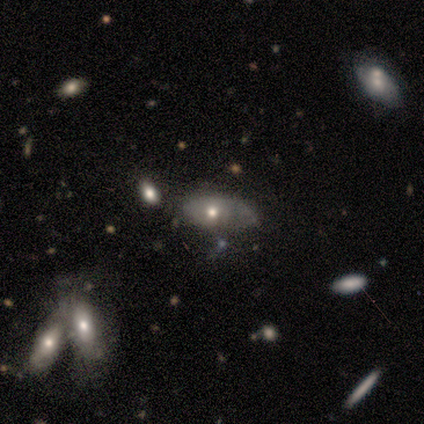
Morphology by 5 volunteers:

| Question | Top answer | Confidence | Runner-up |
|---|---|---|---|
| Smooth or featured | smooth | 60% | featured or disk (40%) |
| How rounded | in between | 100% | — |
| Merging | none | 60% | major disturbance (20%) |